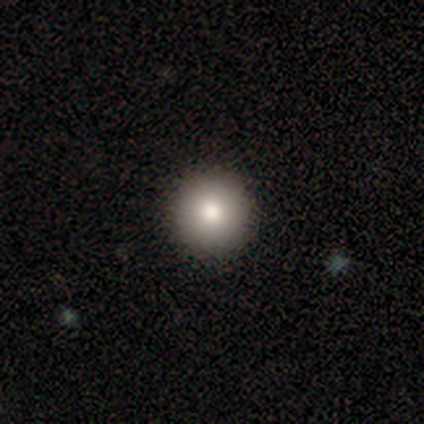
Consensus on every question: smooth or featured — smooth (100%); how rounded — round (100%); merging — none (100%).